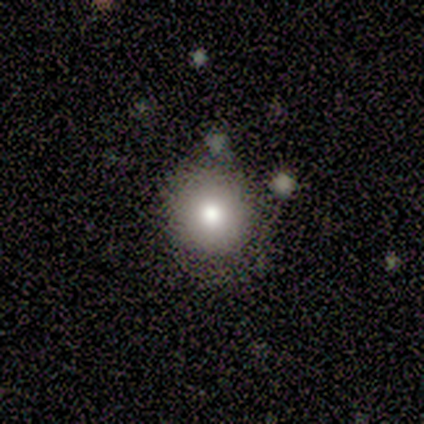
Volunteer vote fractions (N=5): Q: Smooth or featured?
A: smooth (100%)
Q: How rounded?
A: round (100%)
Q: Merging?
A: none (100%)